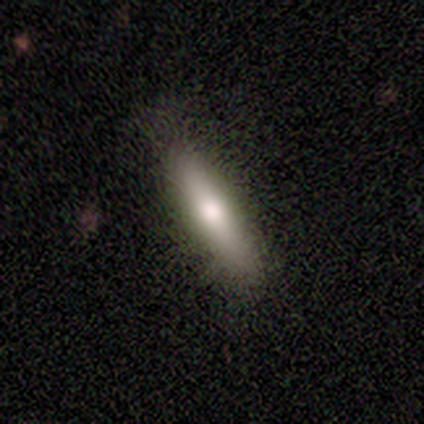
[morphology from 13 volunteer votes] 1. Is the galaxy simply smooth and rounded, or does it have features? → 77% smooth, 15% featured or disk, 8% star or artifact.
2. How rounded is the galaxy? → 80% cigar-shaped, 20% in between, 0% round.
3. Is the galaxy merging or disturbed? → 100% none, 0% minor disturbance, 0% major disturbance, 0% merger.